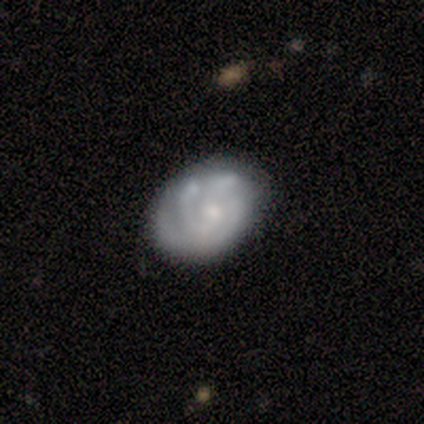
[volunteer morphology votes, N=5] A featured or disk galaxy (80%) with no bar (75%), tight (75%) spiral arms (100%) and a moderate central bulge (75%). Merging: none (60%).